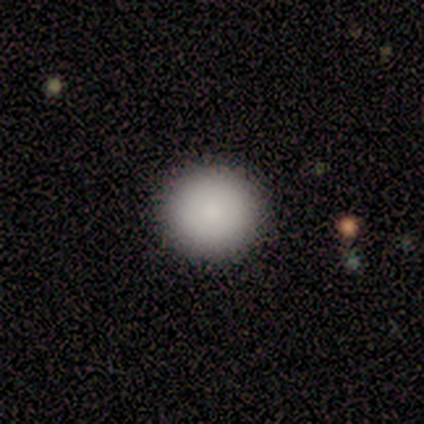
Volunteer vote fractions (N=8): smooth-or-featured: smooth: 88% | star or artifact: 12% | featured or disk: 0%
  how-rounded: round: 100% | in between: 0% | cigar-shaped: 0%
  merging: none: 100% | minor disturbance: 0% | major disturbance: 0% | merger: 0%